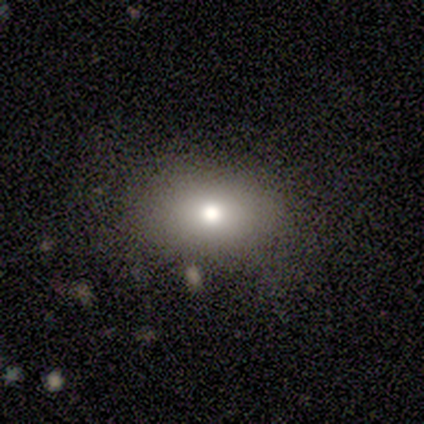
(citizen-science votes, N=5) Smooth or featured? smooth (80%)
How rounded? in between (50%)
Merging? none (80%)